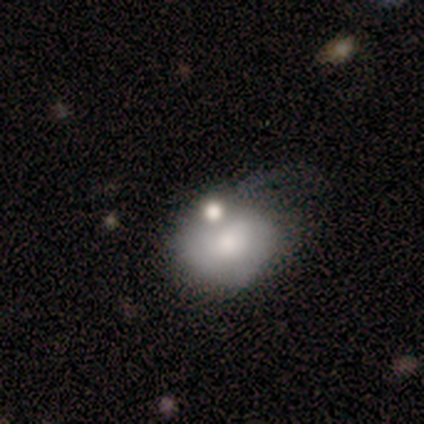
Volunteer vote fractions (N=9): This is clearly a smooth galaxy (89%). How rounded: possibly round (50%, tied with in between). Merging: marginally none (44%, tied with minor disturbance).